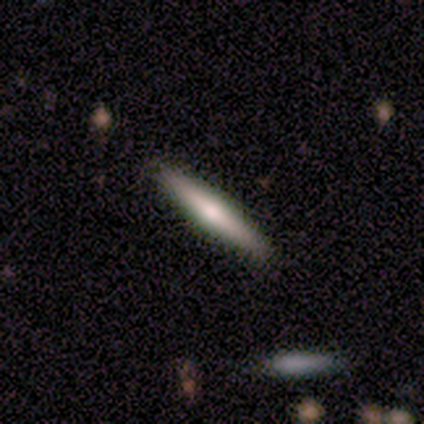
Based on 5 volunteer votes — Morphology: type=featured or disk (80%); edge-on=yes (100%); edge-on bulge=rounded (100%); merging=none (100%).